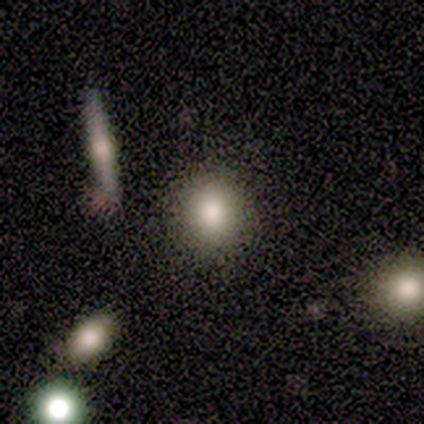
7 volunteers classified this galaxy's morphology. Volunteers were most divided on "smooth or featured": smooth: 71%, featured or disk: 14%, star or artifact: 14%. More confident: how rounded — round (100%); merging — none (83%).